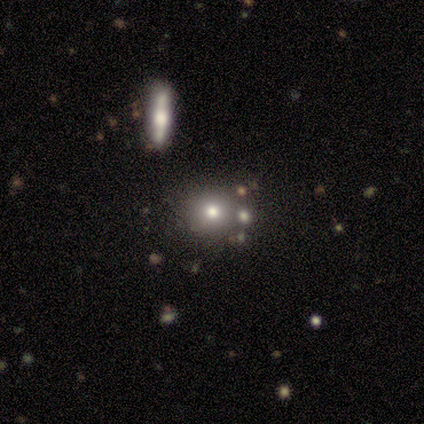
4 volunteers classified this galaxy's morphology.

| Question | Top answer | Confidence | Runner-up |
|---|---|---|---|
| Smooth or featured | smooth | 100% | — |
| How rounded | round | 75% | cigar-shaped (25%) |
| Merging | none | 100% | — |